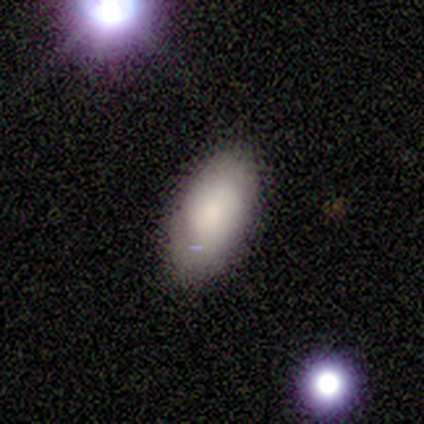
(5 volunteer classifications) Smooth or featured? 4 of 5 (80%) said smooth. How rounded? 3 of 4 (75%) said in between. Merging? 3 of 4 (75%) said none.